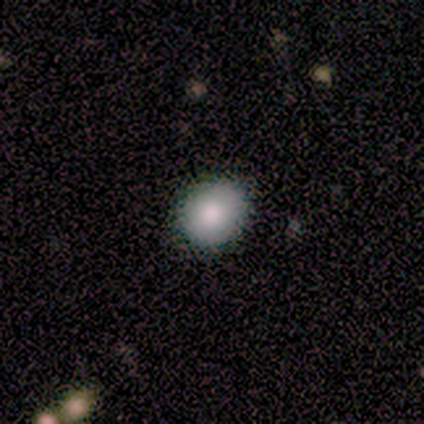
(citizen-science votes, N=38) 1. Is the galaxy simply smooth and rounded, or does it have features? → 92% smooth, 5% star or artifact, 3% featured or disk.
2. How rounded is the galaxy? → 66% round, 31% in between, 3% cigar-shaped.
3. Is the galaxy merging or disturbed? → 86% none, 11% minor disturbance, 3% major disturbance, 0% merger.